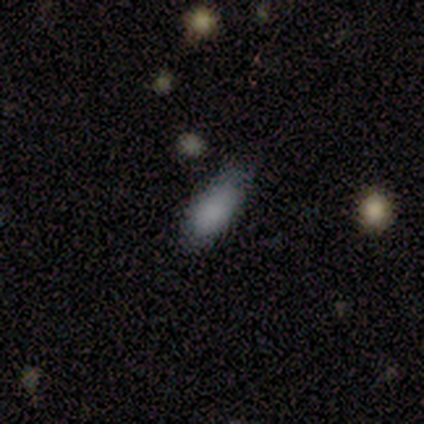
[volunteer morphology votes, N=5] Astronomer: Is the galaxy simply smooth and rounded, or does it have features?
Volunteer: smooth — 80%.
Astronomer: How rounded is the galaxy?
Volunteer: in between — 100%.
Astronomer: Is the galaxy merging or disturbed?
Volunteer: minor disturbance — 60% (runner-up: none, 40%).